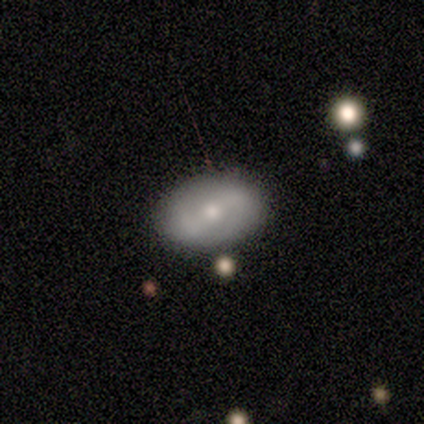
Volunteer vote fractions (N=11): Morphology: type=featured or disk (73%); edge-on=no (100%); bar=weak (62%); spiral arms=yes (88%); winding=medium (57%); arm count=2 (86%); bulge=moderate (62%); merging=none (100%).